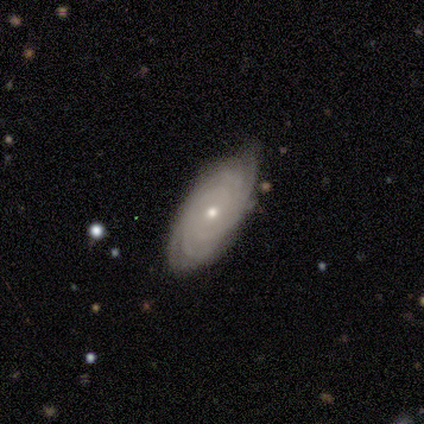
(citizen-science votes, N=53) Smooth or featured: featured or disk — 81% (smooth — 11%)
Edge-on disk: no — 100%
Bar: no — 86% (weak — 14%)
Spiral arms: yes — 88% (no — 12%)
Spiral winding: tight — 79% (medium — 21%)
Spiral arm count: can't tell — 34% (3 — 24%)
Bulge size: small — 56% (moderate — 44%)
Merging: none — 71% (minor disturbance — 27%)